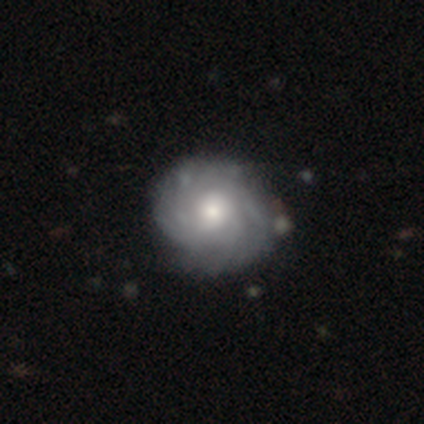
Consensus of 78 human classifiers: featured or disk 82%, smooth 17%, star or artifact 1%. Down the decision tree: edge-on disk — no (100%); bar — no (91%); spiral arms — yes (92%); spiral arm count — can't tell (53%); spiral winding — tight (73%); bulge size — moderate (73%); merging — none (35%).